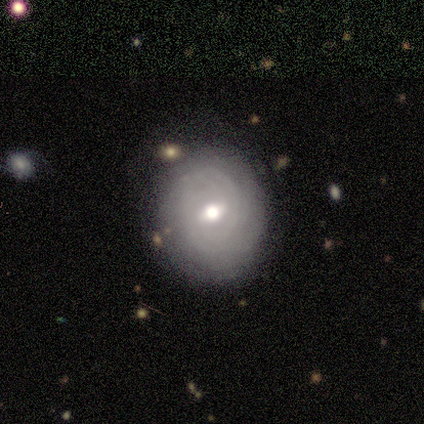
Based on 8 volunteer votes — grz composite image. It shows a featured or disk galaxy (88%) with a weak bar (83%), 2 (67%) tight (67%) spiral arms (50%, tied with no) and a moderate central bulge (50%). Merging: none (71%).